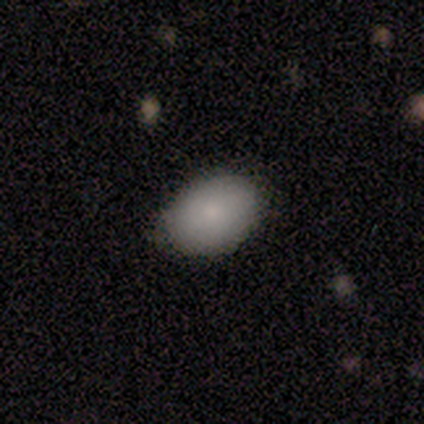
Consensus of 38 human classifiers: Smooth or featured? 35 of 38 (92%) said smooth. How rounded? 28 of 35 (80%) said in between. Merging? 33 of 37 (89%) said none.